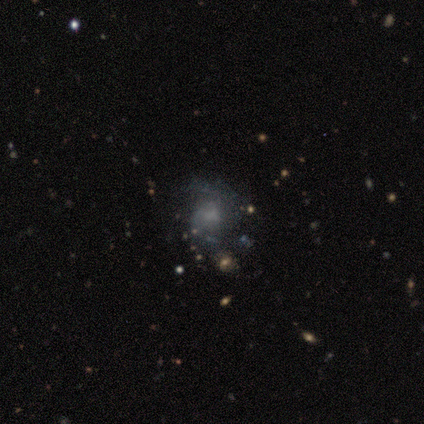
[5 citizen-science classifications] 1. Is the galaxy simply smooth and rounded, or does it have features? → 60% featured or disk, 20% smooth, 20% star or artifact.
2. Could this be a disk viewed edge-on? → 67% no, 33% yes.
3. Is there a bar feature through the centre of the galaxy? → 50% weak (tied), 50% no (tied), 0% strong.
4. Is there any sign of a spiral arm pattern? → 100% yes, 0% no.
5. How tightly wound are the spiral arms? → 100% loose, 0% tight, 0% medium.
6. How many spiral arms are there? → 100% 2, 0% 1, 0% 3, 0% 4, 0% more than 4, 0% can't tell.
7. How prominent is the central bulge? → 50% moderate (tied), 50% small (tied), 0% dominant, 0% large, 0% none.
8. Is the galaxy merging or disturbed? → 75% none, 25% minor disturbance, 0% major disturbance, 0% merger.